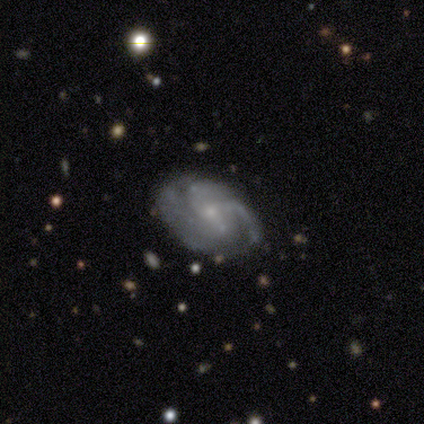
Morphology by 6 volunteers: smooth-or-featured: featured or disk: 100% | smooth: 0% | star or artifact: 0%
  disk-edge-on: no: 100% | yes: 0%
    bar: strong: 33% (tied) | weak: 33% (tied) | no: 33% (tied)
    has-spiral-arms: yes: 100% | no: 0%
      spiral-winding: tight: 33% (tied) | medium: 33% (tied) | loose: 33% (tied)
      spiral-arm-count: 3: 67% | can't tell: 33% | 1: 0% | 2: 0% | 4: 0% | more than 4: 0%
    bulge-size: small: 67% | moderate: 33% | dominant: 0% | large: 0% | none: 0%
  merging: none: 67% | minor disturbance: 17% | major disturbance: 17% | merger: 0%